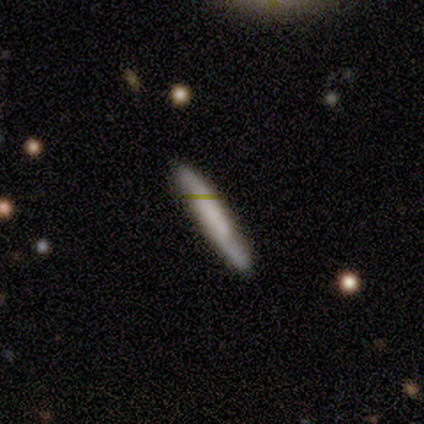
smooth-or-featured: smooth: 61% | featured or disk: 36% | star or artifact: 3%
  how-rounded: cigar-shaped: 100% | round: 0% | in between: 0%
  merging: none: 45% | minor disturbance: 4% | merger: 3% | major disturbance: 1%